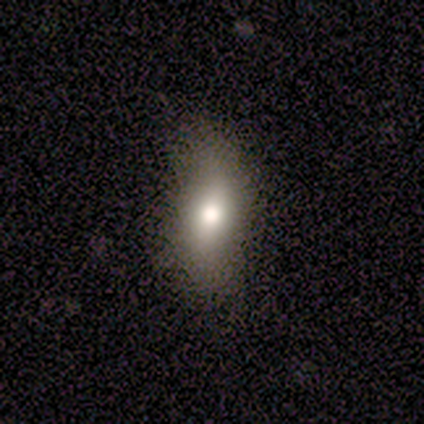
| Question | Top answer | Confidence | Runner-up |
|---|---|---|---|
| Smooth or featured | smooth | 60% | featured or disk (40%) |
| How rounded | in between | 67% | cigar-shaped (33%) |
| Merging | minor disturbance | 60% | none (40%) |